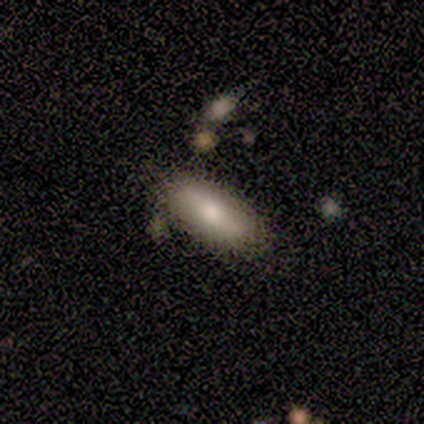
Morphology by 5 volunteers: Q: Smooth or featured?
A: smooth (80%); runner-up: featured or disk (20%)
Q: How rounded?
A: in between (100%)
Q: Merging?
A: none (80%); runner-up: minor disturbance (20%)